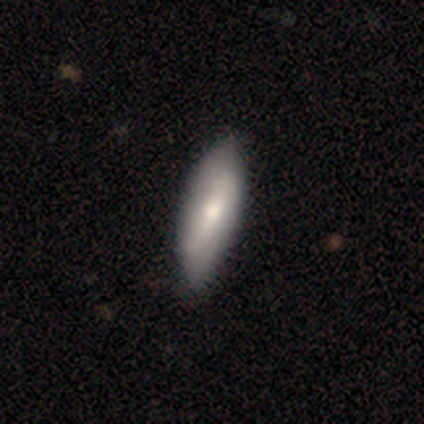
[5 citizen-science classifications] Smooth or featured? 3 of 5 (60%) said featured or disk. Edge-on disk? 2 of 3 (67%) said no. Bar? 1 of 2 (50%, tied with no) said strong. Spiral arms? 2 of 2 (100%) said yes. Spiral winding? 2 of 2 (100%) said loose. Spiral arm count? 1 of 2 (50%, tied with can't tell) said 2. Bulge size? 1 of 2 (50%, tied with small) said moderate. Merging? 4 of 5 (80%) said none.